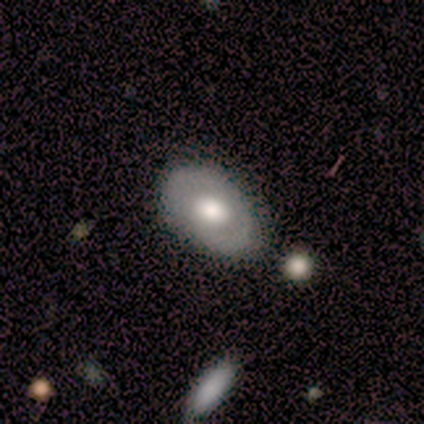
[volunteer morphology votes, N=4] Smooth or featured?
  - smooth: 50% * (tied)
  - featured or disk: 50% * (tied)
  - star or artifact: 0%
How rounded?
  - in between: 100% *
  - round: 0%
  - cigar-shaped: 0%
Merging?
  - none: 100% *
  - minor disturbance: 0%
  - major disturbance: 0%
  - merger: 0%